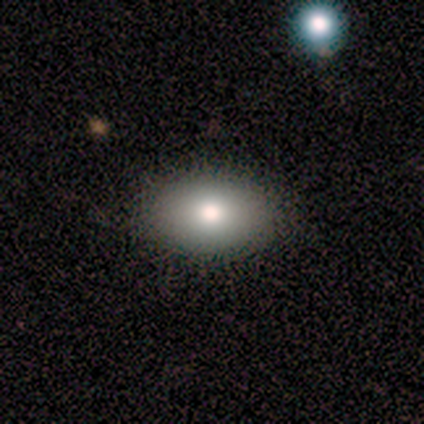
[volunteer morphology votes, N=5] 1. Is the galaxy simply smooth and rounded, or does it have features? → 80% smooth, 20% featured or disk, 0% star or artifact.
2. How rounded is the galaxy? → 100% in between, 0% round, 0% cigar-shaped.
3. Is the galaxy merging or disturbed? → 100% none, 0% minor disturbance, 0% major disturbance, 0% merger.